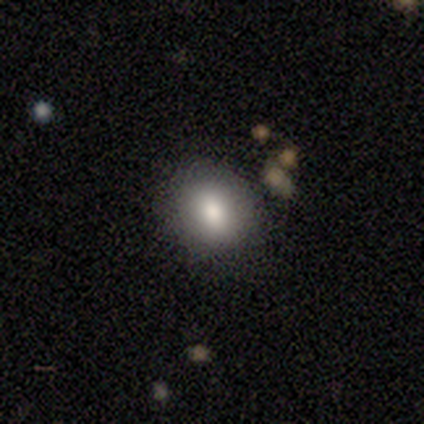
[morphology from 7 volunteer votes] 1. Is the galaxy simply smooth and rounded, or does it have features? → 86% smooth, 14% star or artifact, 0% featured or disk.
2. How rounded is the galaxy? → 50% round (tied), 50% in between (tied), 0% cigar-shaped.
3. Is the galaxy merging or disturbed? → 100% none, 0% minor disturbance, 0% major disturbance, 0% merger.